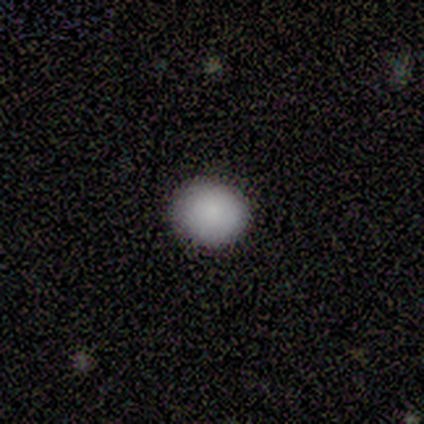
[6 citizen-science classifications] Overall: smooth (100%). How rounded: round (83%). Merging: none (100%).